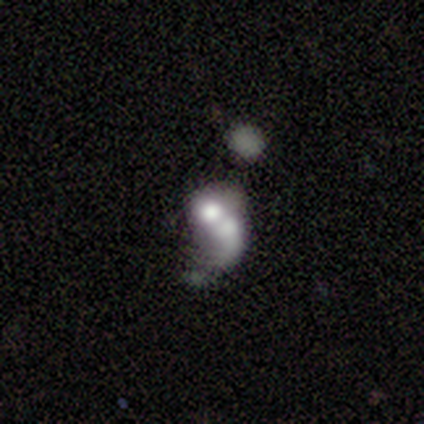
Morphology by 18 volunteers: Smooth or featured? 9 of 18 (50%) said smooth. How rounded? 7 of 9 (78%) said in between. Merging? 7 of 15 (47%) said merger.